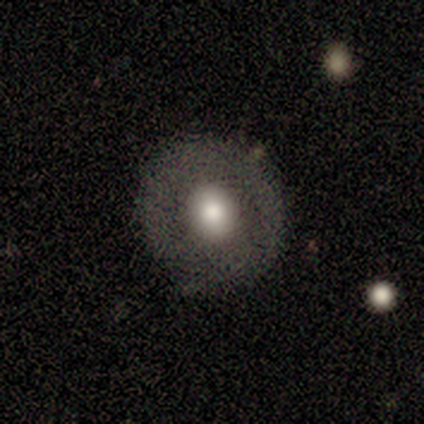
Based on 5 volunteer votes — Smooth or featured? 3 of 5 (60%) said smooth. How rounded? 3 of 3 (100%) said round. Merging? 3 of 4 (75%) said none.